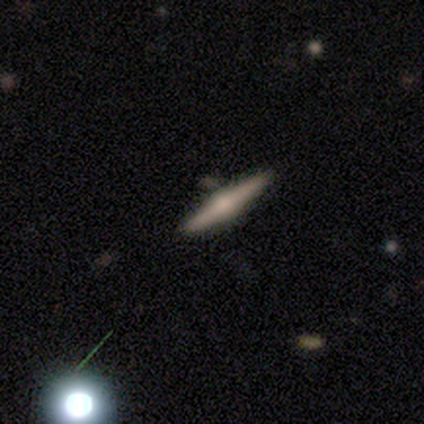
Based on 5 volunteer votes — Smooth or featured? 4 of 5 (80%) said featured or disk. Edge-on disk? 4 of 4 (100%) said yes. Edge-on bulge? 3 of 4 (75%) said rounded. Merging? 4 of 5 (80%) said none.